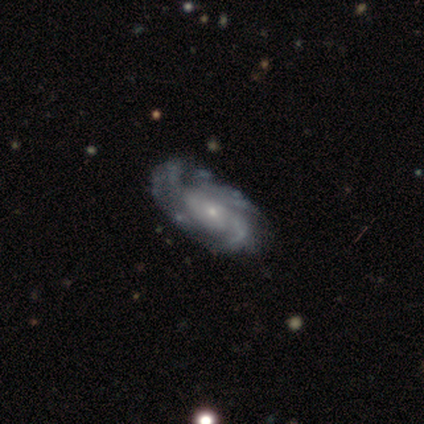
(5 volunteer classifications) Overall: featured or disk (100%). Edge-on disk: no (100%). Bar: no (100%). Spiral arms: yes (100%). Spiral arm count: 3 (40%, tied with can't tell). Spiral winding: tight (60%; medium 40%). Bulge size: small (60%; moderate 40%). Merging: none (80%).